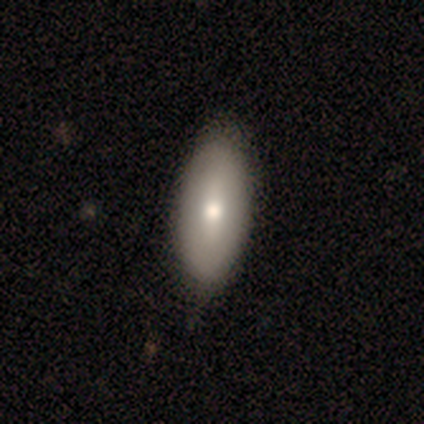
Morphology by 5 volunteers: Smooth or featured? 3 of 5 (60%) said smooth. How rounded? 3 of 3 (100%) said in between. Merging? 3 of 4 (75%) said none.